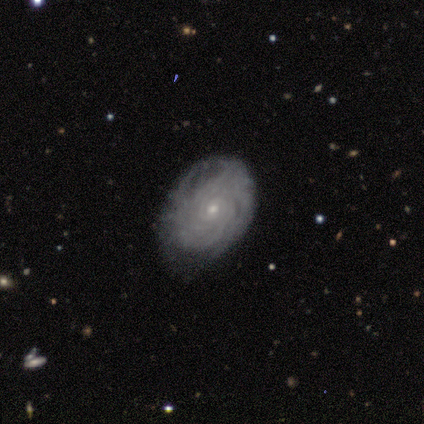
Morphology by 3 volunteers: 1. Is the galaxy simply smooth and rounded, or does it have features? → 100% featured or disk, 0% smooth, 0% star or artifact.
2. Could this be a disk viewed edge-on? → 100% no, 0% yes.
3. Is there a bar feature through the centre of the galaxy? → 67% no, 33% weak, 0% strong.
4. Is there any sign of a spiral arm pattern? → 100% yes, 0% no.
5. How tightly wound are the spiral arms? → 67% tight, 33% medium, 0% loose.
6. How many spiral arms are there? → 67% more than 4, 33% 2, 0% 1, 0% 3, 0% 4, 0% can't tell.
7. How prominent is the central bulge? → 100% small, 0% dominant, 0% large, 0% moderate, 0% none.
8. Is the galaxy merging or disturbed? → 67% minor disturbance, 33% none, 0% major disturbance, 0% merger.